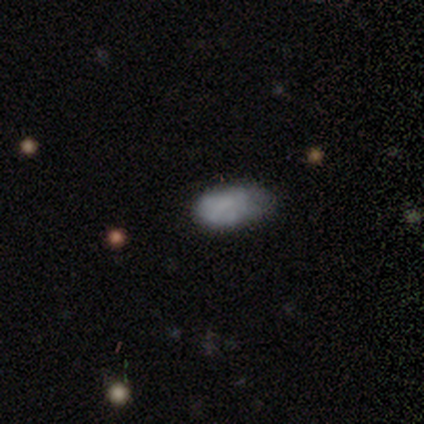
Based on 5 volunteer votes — Morphology: type=smooth (80%); roundness=in between (100%); merging=minor disturbance (80%).